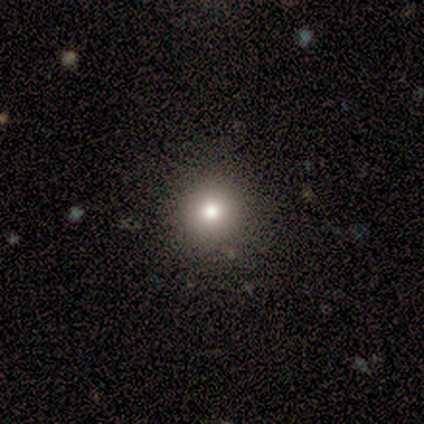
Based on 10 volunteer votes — A smooth galaxy with no disk features (50%) that is round (100%). Merging: none (88%).